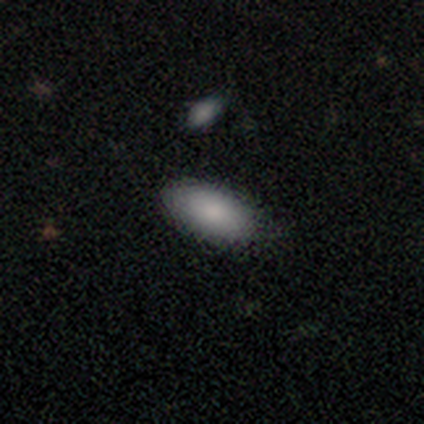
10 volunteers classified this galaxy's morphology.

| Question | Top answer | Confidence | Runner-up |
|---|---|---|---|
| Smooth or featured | smooth | 100% | — |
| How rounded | in between | 100% | — |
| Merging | none | 90% | minor disturbance (10%) |